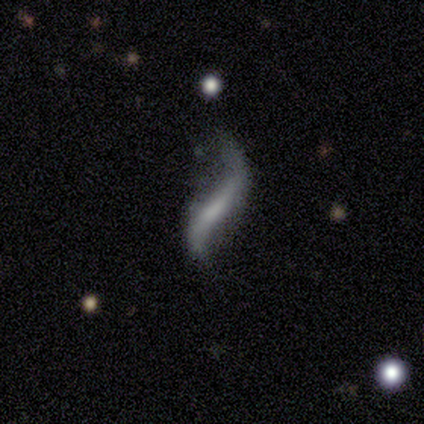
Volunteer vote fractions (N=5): Morphology: type=featured or disk (60%); edge-on=no (100%); bar=no (67%); spiral arms=yes (100%); winding=loose (100%); arm count=2 (100%); bulge=none (67%); merging=none (60%).